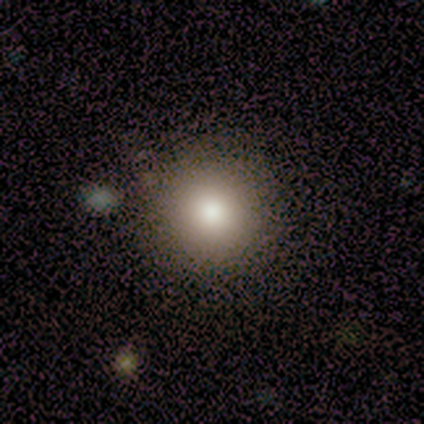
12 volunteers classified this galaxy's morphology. smooth-or-featured: smooth: 58% | featured or disk: 33% | star or artifact: 8%
  how-rounded: round: 100% | in between: 0% | cigar-shaped: 0%
  merging: none: 82% | minor disturbance: 9% | major disturbance: 9% | merger: 0%